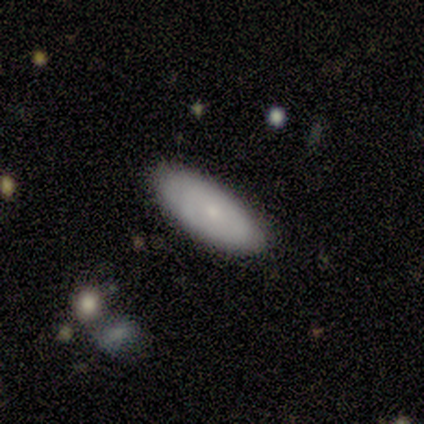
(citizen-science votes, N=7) Volunteers were most divided on "smooth or featured": smooth: 57%, featured or disk: 43%, star or artifact: 0%. More confident: merging — none (100%); how rounded — in between (75%).